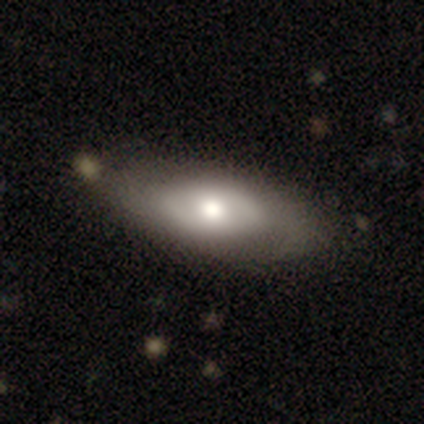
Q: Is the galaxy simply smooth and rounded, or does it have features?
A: smooth — 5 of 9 (56%).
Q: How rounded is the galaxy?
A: in between — 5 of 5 (100%).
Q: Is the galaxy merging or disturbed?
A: none — 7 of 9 (78%).